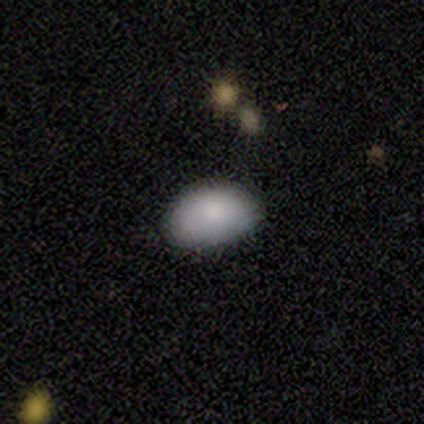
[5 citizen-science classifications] Morphology: type=smooth (100%); roundness=in between (100%); merging=none (100%).